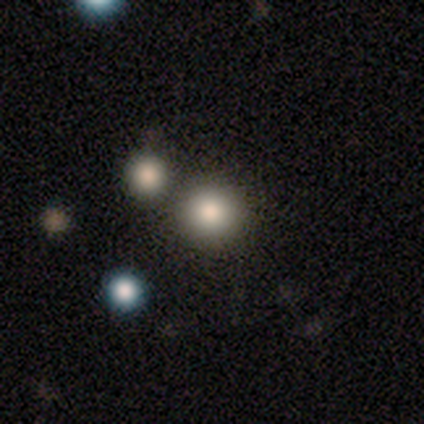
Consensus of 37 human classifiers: Volunteers were most divided on "smooth or featured": smooth: 81%, star or artifact: 14%, featured or disk: 5%. More confident: how rounded — round (100%); merging — none (94%).